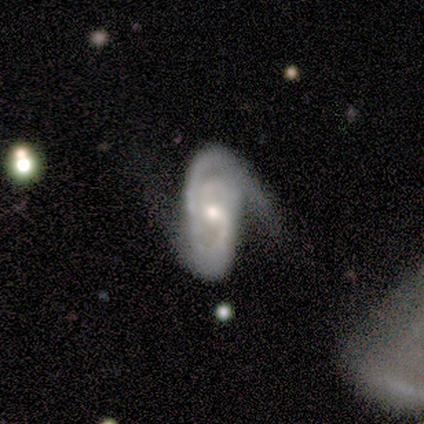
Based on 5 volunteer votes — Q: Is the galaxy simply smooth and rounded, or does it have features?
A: featured or disk — 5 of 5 (100%).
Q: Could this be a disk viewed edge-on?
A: no — 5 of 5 (100%).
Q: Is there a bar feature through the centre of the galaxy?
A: weak — 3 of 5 (60%).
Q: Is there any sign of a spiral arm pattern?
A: yes — 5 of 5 (100%).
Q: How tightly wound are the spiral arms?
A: tight — 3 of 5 (60%).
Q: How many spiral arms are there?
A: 2 — 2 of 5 (40%, tied with can't tell).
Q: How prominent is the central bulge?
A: small — 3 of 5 (60%).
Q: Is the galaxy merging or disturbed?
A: minor disturbance — 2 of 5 (40%, tied with major disturbance).